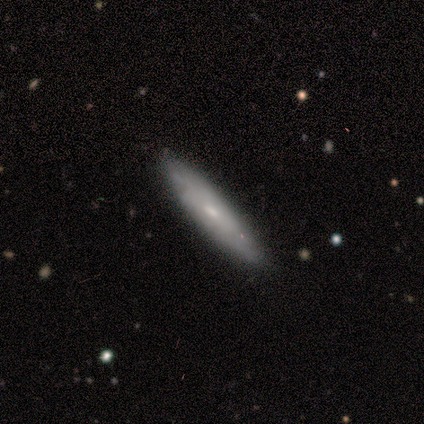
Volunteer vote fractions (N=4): smooth 50% (tied), featured or disk 50% (tied), star or artifact 0%. Down the decision tree: how rounded — cigar-shaped (100%); merging — none (50%, tied with minor disturbance).